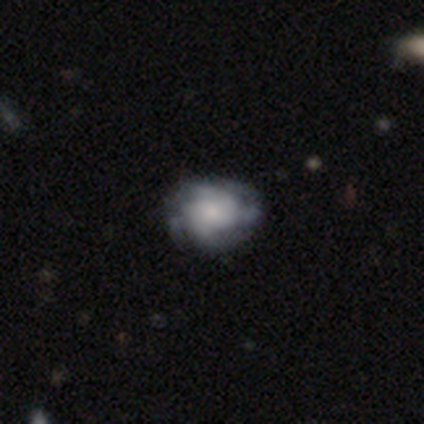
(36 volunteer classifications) smooth-or-featured: featured or disk: 61% | smooth: 31% | star or artifact: 8%
  disk-edge-on: no: 100% | yes: 0%
    bar: no: 91% | weak: 9% | strong: 0%
    has-spiral-arms: yes: 86% | no: 14%
      spiral-winding: tight: 47% | medium: 26% | loose: 26%
      spiral-arm-count: can't tell: 53% | 4: 21% | 2: 16% | 3: 11% | 1: 0% | more than 4: 0%
    bulge-size: small: 41% | moderate: 32% | large: 18% | none: 9% | dominant: 0%
  merging: none: 58% | minor disturbance: 24% | major disturbance: 18% | merger: 0%